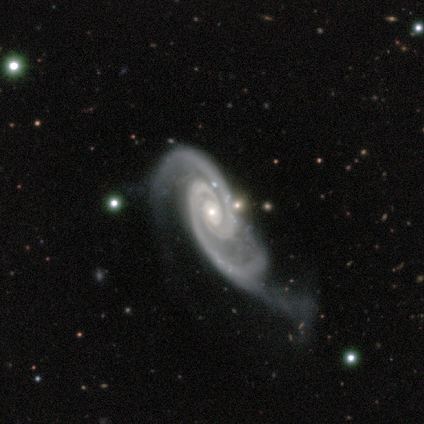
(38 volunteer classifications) Smooth or featured? featured or disk (95%)
Edge-on disk? no (94%)
Bar? no (65%)
Spiral arms? yes (100%)
Spiral winding? tight (56%)
Spiral arm count? 2 (97%)
Bulge size? small (88%)
Merging? minor disturbance (38%, tied with major disturbance)